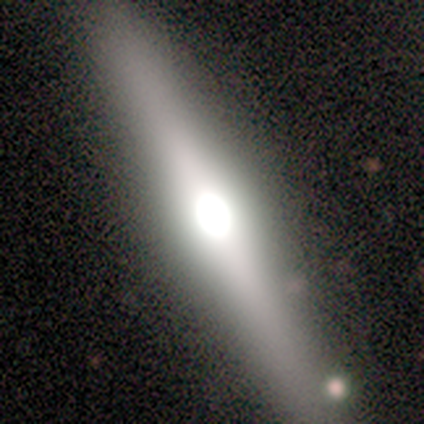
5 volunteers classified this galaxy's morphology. type=featured or disk (60%); edge-on=yes (100%); edge-on bulge=rounded (100%); merging=none (80%).